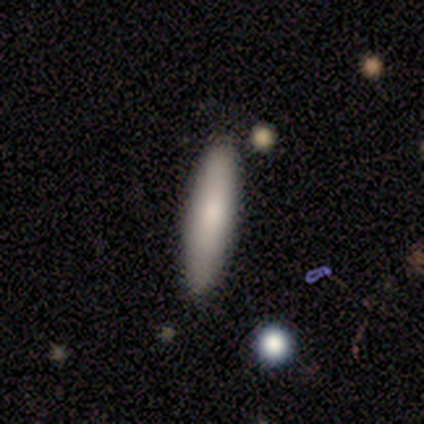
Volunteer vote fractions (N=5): smooth 100%, featured or disk 0%, star or artifact 0%. Down the decision tree: how rounded — cigar-shaped (80%); merging — none (80%).